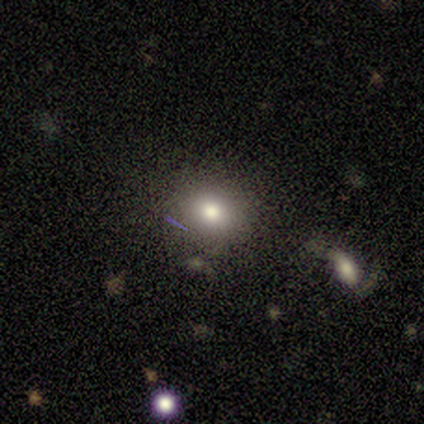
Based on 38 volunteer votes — Smooth or featured: smooth — 76% (featured or disk — 13%)
How rounded: round — 69% (in between — 31%)
Merging: none — 76% (minor disturbance — 12%)